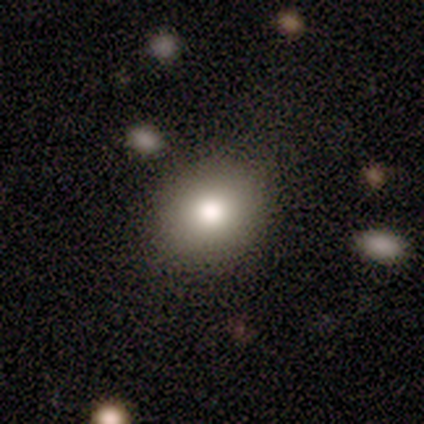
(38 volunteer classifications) Smooth or featured: smooth — 87% (featured or disk — 8%)
How rounded: round — 64% (in between — 36%)
Merging: none — 89% (minor disturbance — 11%)